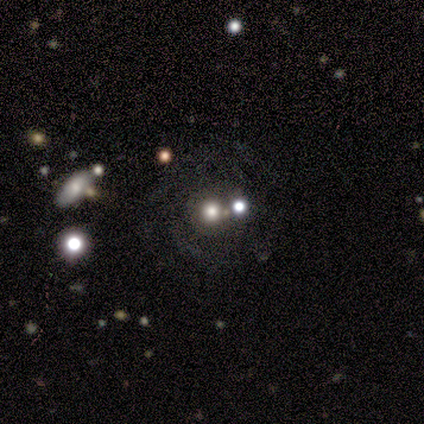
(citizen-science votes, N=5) Volunteers were most divided on "bulge size" (2-way tie): moderate: 50%, none: 50%, dominant: 0%, large: 0%, small: 0%. More confident: bar — no (100%); spiral arms — no (100%); edge-on disk — no (67%); smooth or featured — featured or disk (60%); merging — none (50%).